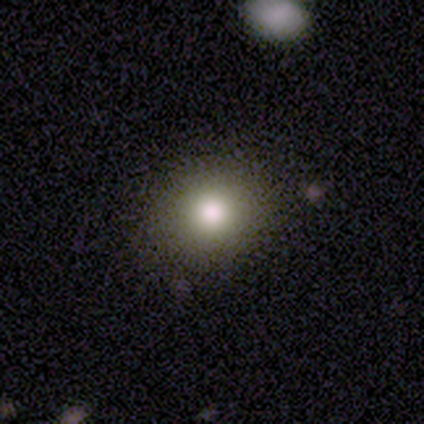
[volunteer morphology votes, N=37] smooth 73%, star or artifact 22%, featured or disk 5%. Down the decision tree: how rounded — round (78%); merging — none (76%).